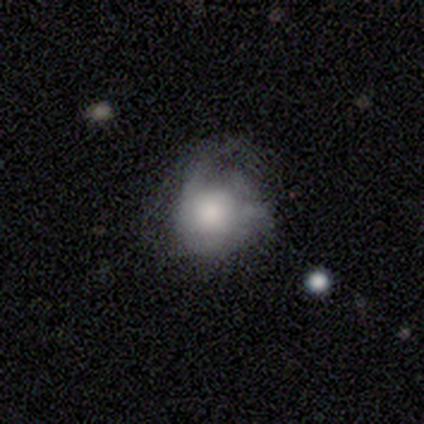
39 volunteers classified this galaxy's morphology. Smooth or featured? smooth (69%)
How rounded? round (81%)
Merging? none (43%)